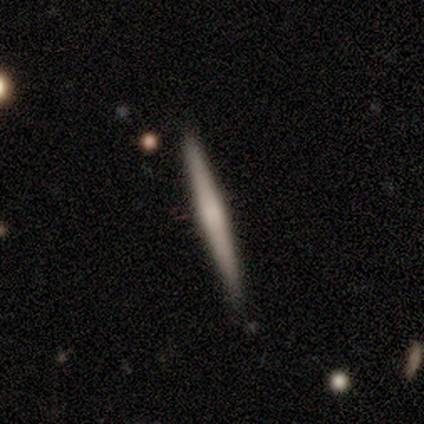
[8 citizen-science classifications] A smooth galaxy with no disk features (50%, tied with featured or disk) that is cigar-shaped (100%).

Vote fractions:
- Smooth or featured? smooth: 50% (tied) / featured or disk: 50% (tied) / star or artifact: 0%
- How rounded? cigar-shaped: 100% / round: 0% / in between: 0%
- Merging? none: 75% / minor disturbance: 25% / major disturbance: 0% / merger: 0%